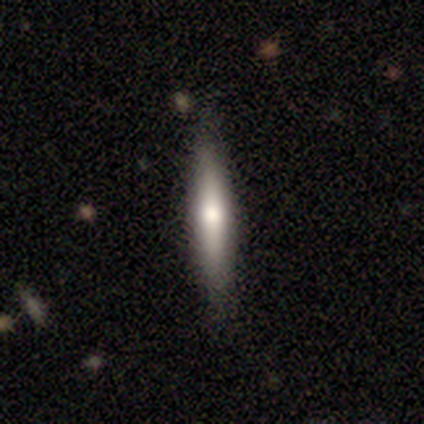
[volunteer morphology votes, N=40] Smooth or featured: smooth — 57% (featured or disk — 38%)
How rounded: cigar-shaped — 91% (in between — 9%)
Merging: none — 92% (minor disturbance — 8%)